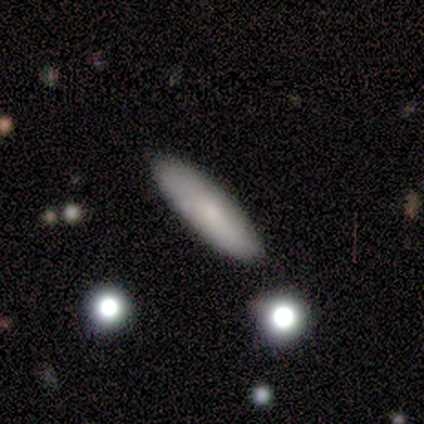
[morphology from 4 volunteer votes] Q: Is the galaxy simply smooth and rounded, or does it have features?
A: smooth — 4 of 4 (100%).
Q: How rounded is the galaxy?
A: cigar-shaped — 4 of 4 (100%).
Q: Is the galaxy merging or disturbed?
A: none — 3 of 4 (75%).